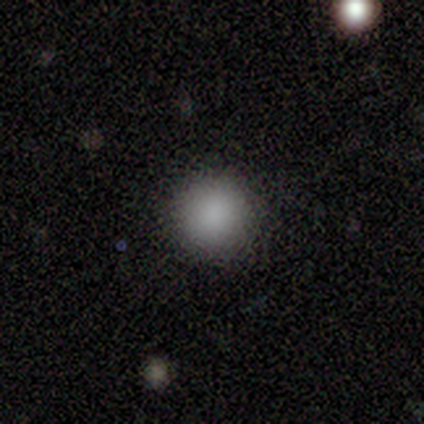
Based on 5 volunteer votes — smooth-or-featured: smooth: 100% | featured or disk: 0% | star or artifact: 0%
  how-rounded: round: 100% | in between: 0% | cigar-shaped: 0%
  merging: none: 100% | minor disturbance: 0% | major disturbance: 0% | merger: 0%